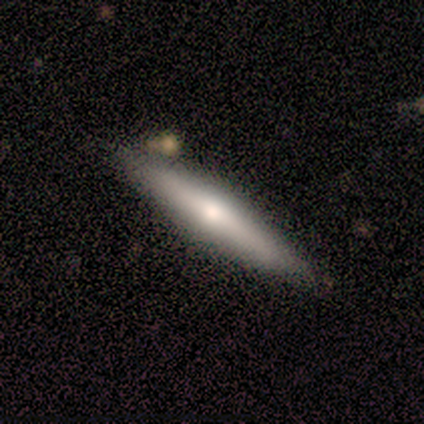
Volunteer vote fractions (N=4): This appears to be a smooth galaxy with no disk features (100%) that is cigar-shaped (75%). Merging: minor disturbance (75%).